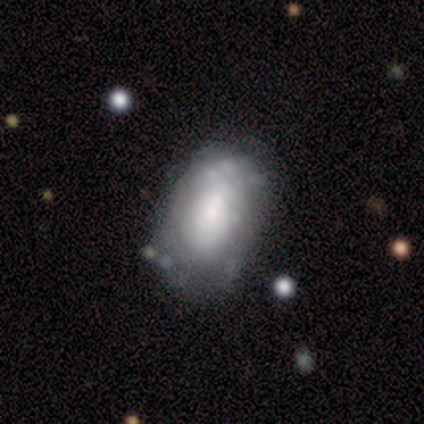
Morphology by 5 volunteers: A featured or disk galaxy (60%) with no bar (67%), 1 (67%) tight (67%) spiral arms (100%) and a small central bulge (67%).

Vote fractions:
- Smooth or featured? featured or disk: 60% / smooth: 40% / star or artifact: 0%
- Edge-on disk? no: 100% / yes: 0%
- Bar? no: 67% / weak: 33% / strong: 0%
- Spiral arms? yes: 100% / no: 0%
- Spiral winding? tight: 67% / loose: 33% / medium: 0%
- Spiral arm count? 1: 67% / 2: 33% / 3: 0% / 4: 0% / more than 4: 0% / can't tell: 0%
- Bulge size? small: 67% / large: 33% / dominant: 0% / moderate: 0% / none: 0%
- Merging? none: 40% / minor disturbance: 20% / major disturbance: 20% / merger: 20%